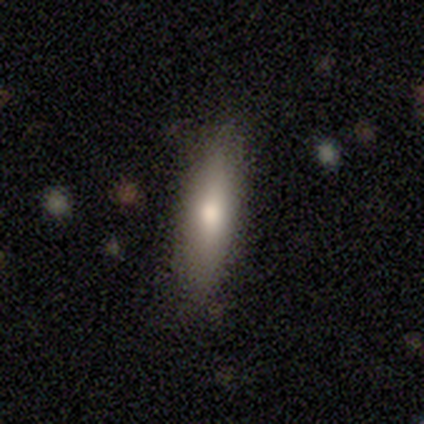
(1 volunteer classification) A smooth galaxy with no disk features (100%) that is in between round and cigar-shaped (100%).

Vote fractions:
- Smooth or featured? smooth: 100% / featured or disk: 0% / star or artifact: 0%
- How rounded? in between: 100% / round: 0% / cigar-shaped: 0%
- Merging? none: 100% / minor disturbance: 0% / major disturbance: 0% / merger: 0%